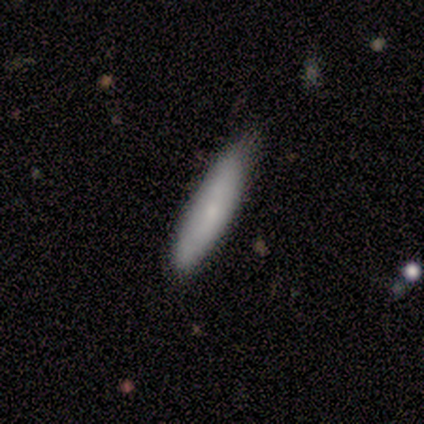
Overall: smooth (71%). How rounded: cigar-shaped (80%). Merging: none (71%).